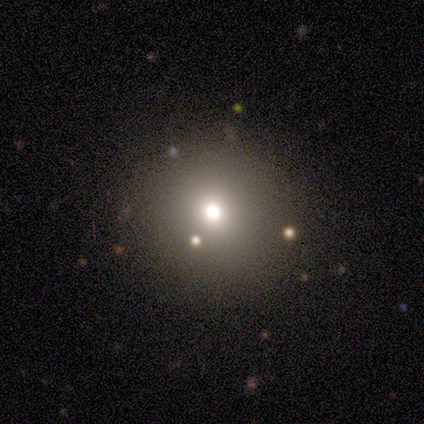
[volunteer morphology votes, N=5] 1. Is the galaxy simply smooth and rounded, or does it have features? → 60% smooth, 40% star or artifact, 0% featured or disk.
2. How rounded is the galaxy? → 100% round, 0% in between, 0% cigar-shaped.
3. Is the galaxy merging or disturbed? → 100% none, 0% minor disturbance, 0% major disturbance, 0% merger.